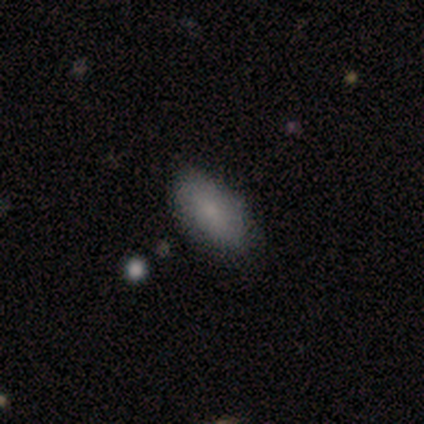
This appears to be a smooth galaxy with no disk features (100%) that is in between round and cigar-shaped (80%). Merging: none (80%).